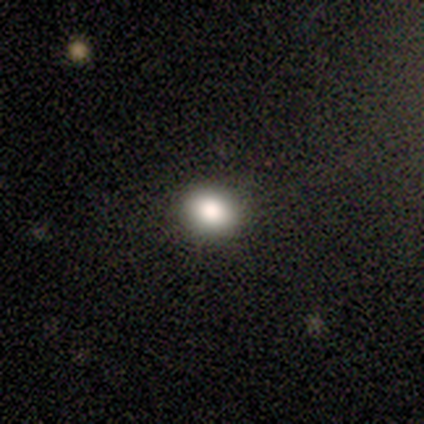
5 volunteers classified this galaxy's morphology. This appears to be a smooth galaxy with no disk features (80%) that is round (50%, tied with in between). Merging: none (80%).